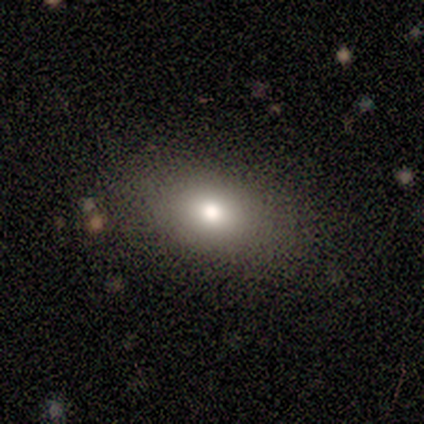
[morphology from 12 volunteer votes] This appears to be a smooth galaxy with no disk features (100%) that is in between round and cigar-shaped (83%). Merging: none (75%).